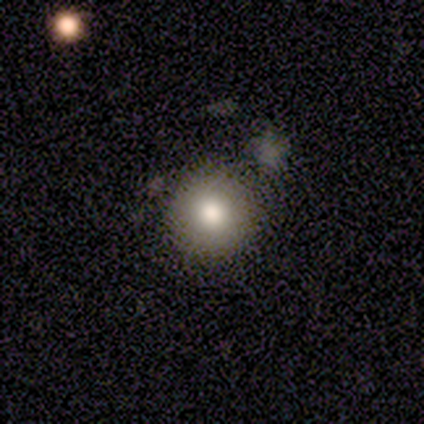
Smooth or featured? 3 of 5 (60%) said smooth. How rounded? 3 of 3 (100%) said round. Merging? 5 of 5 (100%) said none.